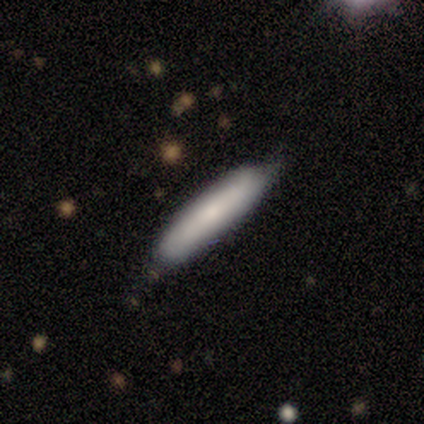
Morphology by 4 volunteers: This appears to be a smooth galaxy with no disk features (50%, tied with featured or disk) that is cigar-shaped (100%). Merging: none (75%).